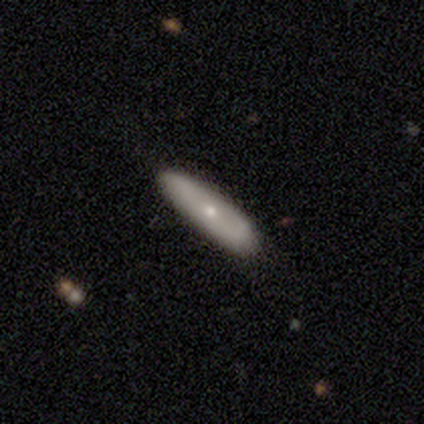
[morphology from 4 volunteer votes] Smooth or featured? smooth (75%)
How rounded? cigar-shaped (67%)
Merging? none (100%)